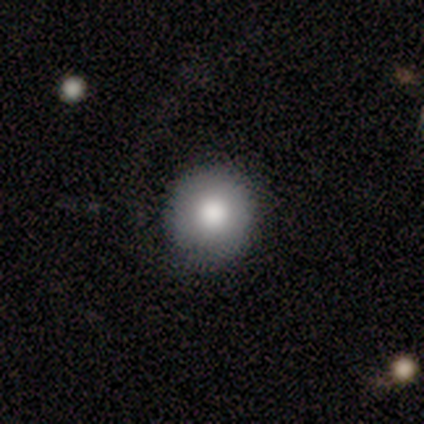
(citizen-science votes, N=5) This is clearly a smooth galaxy (80%). How rounded: clearly round (100%). Merging: clearly none (80%).